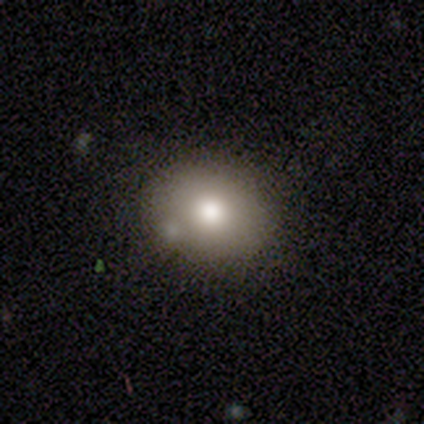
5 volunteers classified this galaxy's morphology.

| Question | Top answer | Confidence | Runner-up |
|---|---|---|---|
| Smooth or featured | smooth | 60% | featured or disk (40%) |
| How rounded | in between | 100% | — |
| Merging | none | 100% | — |